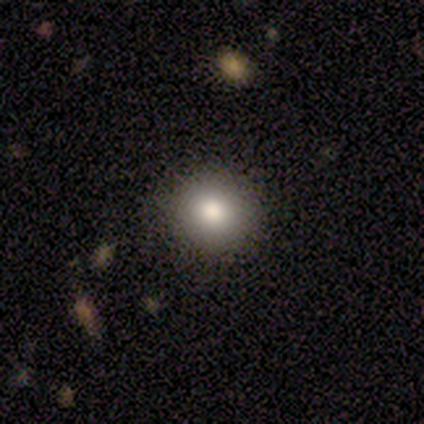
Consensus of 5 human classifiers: Morphology: type=smooth (100%); roundness=round (80%); merging=none (100%).